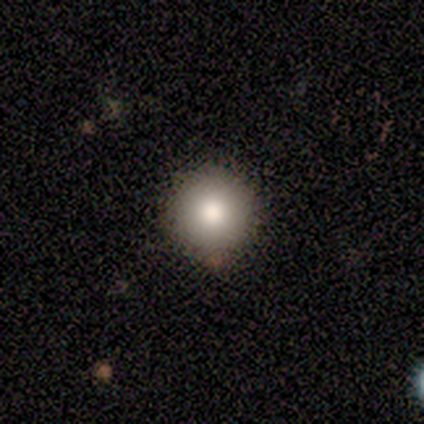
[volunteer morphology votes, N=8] This is clearly a smooth galaxy (88%). How rounded: clearly round (100%). Merging: clearly none (100%).